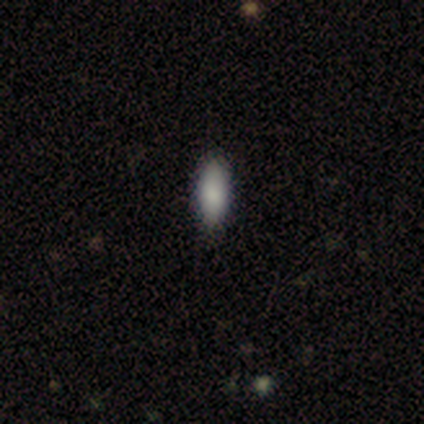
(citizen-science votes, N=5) A smooth galaxy with no disk features (100%) that is in between round and cigar-shaped (80%).

Vote fractions:
- Smooth or featured? smooth: 100% / featured or disk: 0% / star or artifact: 0%
- How rounded? in between: 80% / cigar-shaped: 20% / round: 0%
- Merging? none: 100% / minor disturbance: 0% / major disturbance: 0% / merger: 0%